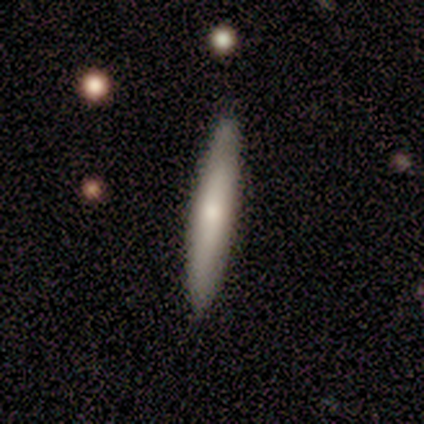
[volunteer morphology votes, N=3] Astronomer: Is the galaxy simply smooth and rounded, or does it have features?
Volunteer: smooth — 67%.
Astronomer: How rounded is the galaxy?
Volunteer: cigar-shaped — 100%.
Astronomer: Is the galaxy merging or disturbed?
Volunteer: none — 100%.